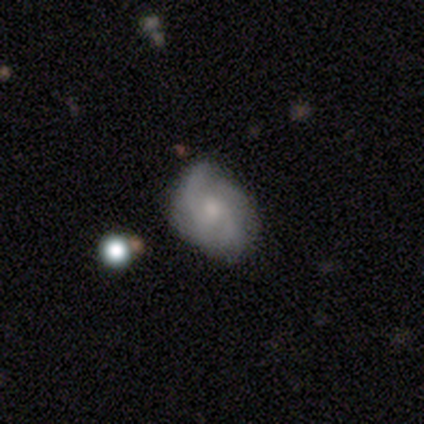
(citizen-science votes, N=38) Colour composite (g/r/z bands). It shows a featured or disk galaxy (87%) with no bar (84%), 2 (45%) medium (55%) spiral arms (100%) and a moderate central bulge (48%). Merging: none (68%).